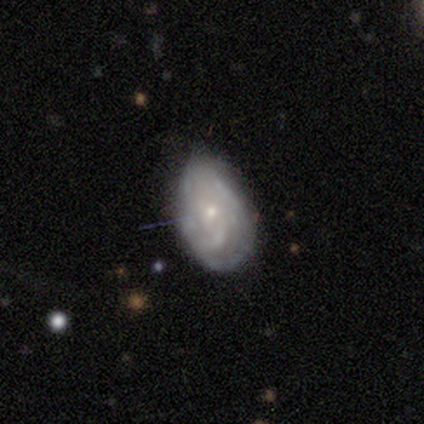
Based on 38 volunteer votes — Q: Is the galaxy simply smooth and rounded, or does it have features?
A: featured or disk — 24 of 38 (63%).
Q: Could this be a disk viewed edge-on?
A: no — 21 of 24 (88%).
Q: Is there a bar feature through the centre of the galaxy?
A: no — 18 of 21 (86%).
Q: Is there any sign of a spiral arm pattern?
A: yes — 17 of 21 (81%).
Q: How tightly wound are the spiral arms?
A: tight — 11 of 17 (65%).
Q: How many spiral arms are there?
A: can't tell — 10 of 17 (59%).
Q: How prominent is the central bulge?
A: small — 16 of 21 (76%).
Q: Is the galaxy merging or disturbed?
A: none — 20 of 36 (56%).